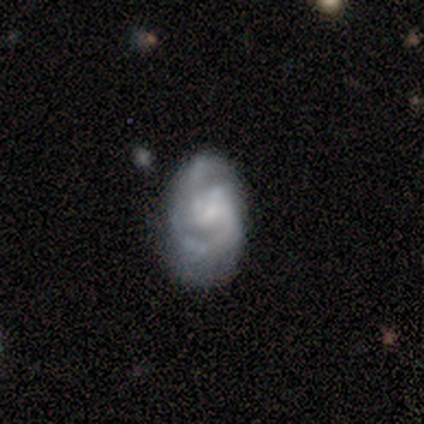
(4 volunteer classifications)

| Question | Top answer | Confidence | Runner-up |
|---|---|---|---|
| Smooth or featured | featured or disk | 100% | — |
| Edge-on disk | no | 100% | — |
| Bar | weak | 50% | tied: no (50%) |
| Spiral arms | yes | 75% | no (25%) |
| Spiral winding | medium | 67% | tight (33%) |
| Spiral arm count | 2 | 67% | can't tell (33%) |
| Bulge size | none | 50% | large (25%) |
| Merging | none | 100% | — |